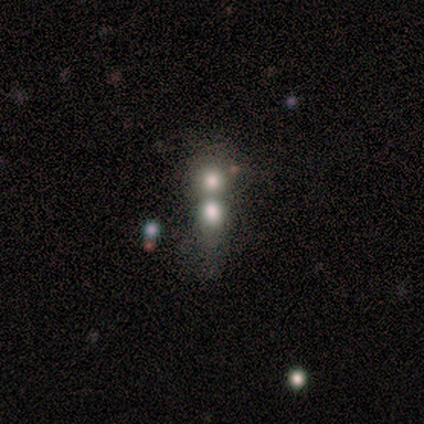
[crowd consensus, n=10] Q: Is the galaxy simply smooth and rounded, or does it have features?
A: smooth — 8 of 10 (80%).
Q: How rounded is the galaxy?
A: round — 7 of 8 (88%).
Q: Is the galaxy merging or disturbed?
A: merger — 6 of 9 (67%).